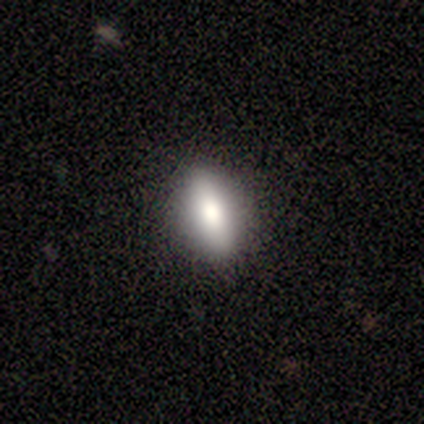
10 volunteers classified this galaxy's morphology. smooth_or_featured: smooth (p=0.90) [alt: featured or disk p=0.10]
how_rounded: in between (p=0.89) [alt: cigar-shaped p=0.11]
merging: none (p=0.90) [alt: minor disturbance p=0.10]